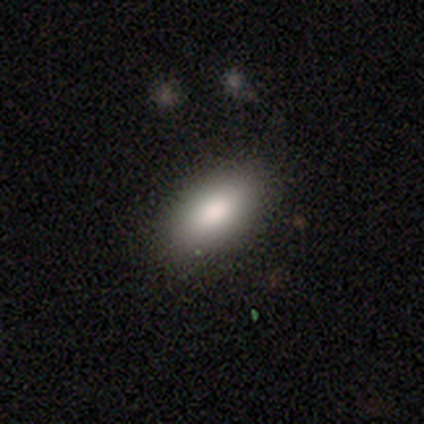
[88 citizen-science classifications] smooth-or-featured: smooth: 88% | star or artifact: 8% | featured or disk: 5%
  how-rounded: in between: 88% | cigar-shaped: 8% | round: 4%
  merging: none: 86% | minor disturbance: 11% | major disturbance: 1% | merger: 1%